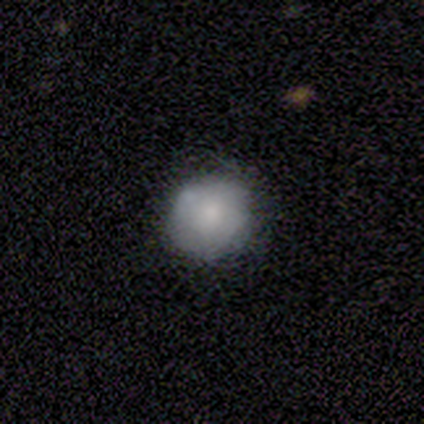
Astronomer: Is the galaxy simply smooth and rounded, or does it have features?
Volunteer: smooth — 60%.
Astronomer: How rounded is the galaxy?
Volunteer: round — 100%.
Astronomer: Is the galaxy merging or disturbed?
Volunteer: none — 100%.